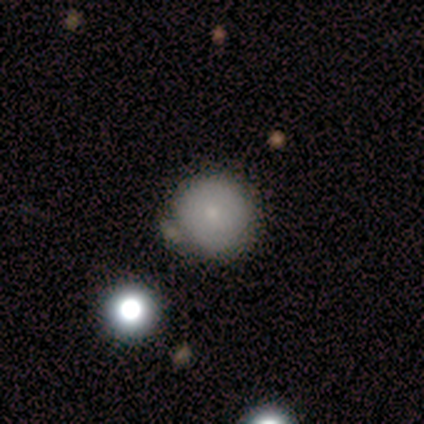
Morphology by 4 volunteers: smooth_or_featured: smooth (p=0.50) [alt: featured or disk p=0.25]
how_rounded: round (p=0.50) [tied with: in between p=0.50]
merging: none (p=0.33) [tied with: major disturbance p=0.33, merger p=0.33]